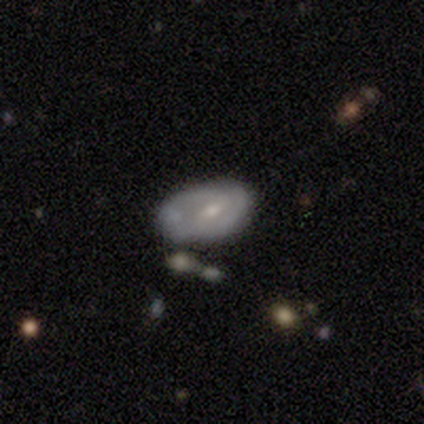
Volunteers were most divided on "spiral arms": no: 58%, yes: 42%. Remaining: edge-on disk — no (100%); smooth or featured — featured or disk (67%); bar — weak (62%); bulge size — small (58%); merging — minor disturbance (45%).